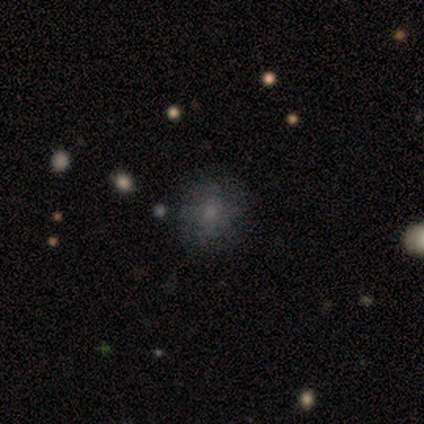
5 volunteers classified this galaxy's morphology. type=featured or disk (60%); edge-on=no (100%); bar=no (67%); spiral arms=no (100%); bulge=small (67%); merging=none (60%).